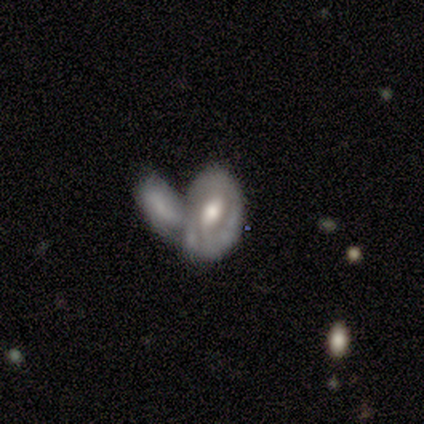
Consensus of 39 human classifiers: Volunteers were most divided on "bar": no: 43%, weak: 36%, strong: 21%. More confident: edge-on disk — no (97%); merging — merger (77%); smooth or featured — featured or disk (74%); bulge size — moderate (71%); spiral arms — no (54%).